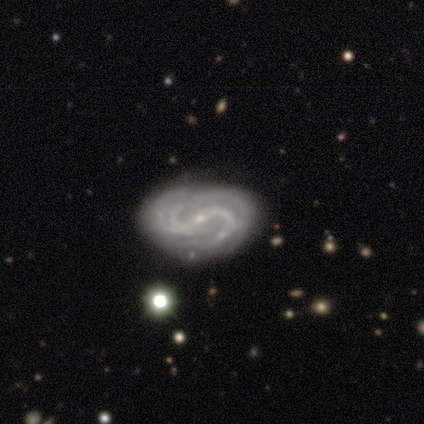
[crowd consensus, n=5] Volunteers were most divided on "bar": strong: 60%, weak: 20%, no: 20%. More confident: smooth or featured — featured or disk (100%); edge-on disk — no (100%); bulge size — small (100%); spiral arms — yes (80%); merging — none (80%); spiral winding — medium (75%); spiral arm count — 2 (75%).